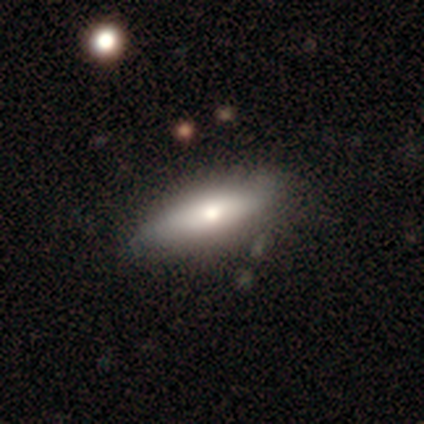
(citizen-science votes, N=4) A featured or disk galaxy (100%) viewed edge-on (50%, tied with no) with a rounded central bulge (100%). Merging: none (50%).